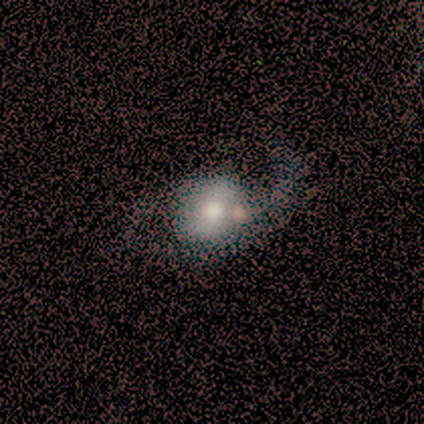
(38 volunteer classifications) Overall: featured or disk (66%; smooth 29%). Edge-on disk: no (96%). Bar: no (71%). Spiral arms: yes (75%). Spiral arm count: 2 (89%). Spiral winding: loose (67%; medium 33%). Bulge size: moderate (67%). Merging: none (28%; major disturbance 19%).